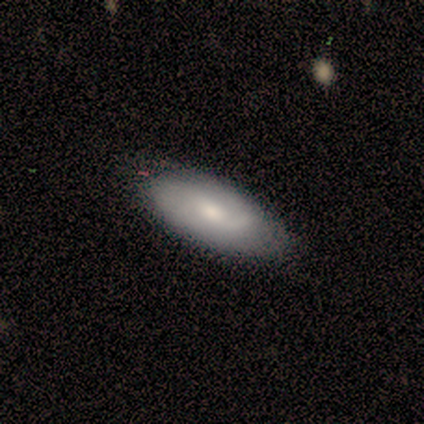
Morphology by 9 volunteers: smooth_or_featured: featured or disk (p=0.67) [alt: smooth p=0.33]
disk_edge_on: no (p=0.67) [alt: yes p=0.33]
bar: weak (p=0.75) [alt: no p=0.25]
has_spiral_arms: yes (p=0.75) [alt: no p=0.25]
spiral_winding: loose (p=0.67) [alt: medium p=0.33]
spiral_arm_count: can't tell (p=0.67) [alt: 2 p=0.33]
bulge_size: small (p=0.75) [alt: moderate p=0.25]
merging: none (p=0.89) [alt: major disturbance p=0.11]